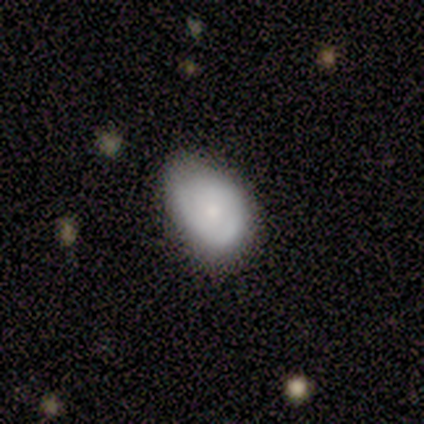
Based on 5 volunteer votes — Smooth or featured? 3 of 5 (60%) said smooth. How rounded? 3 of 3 (100%) said in between. Merging? 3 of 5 (60%) said minor disturbance.